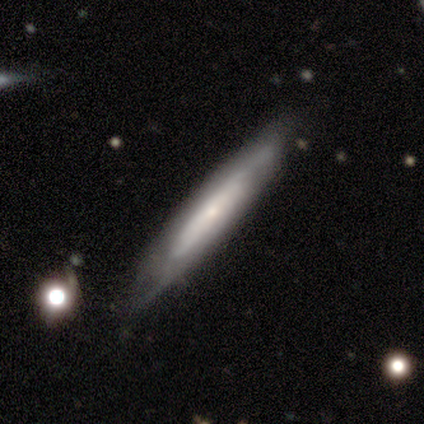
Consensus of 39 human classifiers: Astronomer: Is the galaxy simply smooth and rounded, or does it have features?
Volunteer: featured or disk — 56% (runner-up: smooth, 33%).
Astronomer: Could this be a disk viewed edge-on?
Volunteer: yes — 86%.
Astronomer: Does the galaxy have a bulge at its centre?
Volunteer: none — 58% (runner-up: rounded, 37%).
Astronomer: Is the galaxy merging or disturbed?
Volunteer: none — 74%.